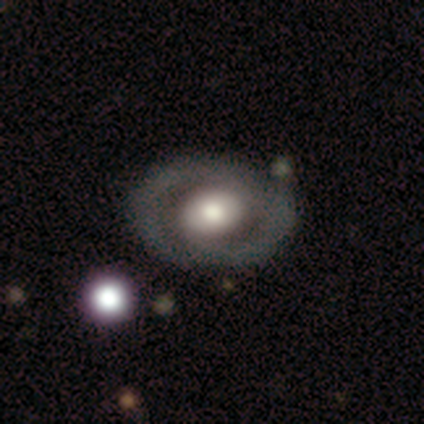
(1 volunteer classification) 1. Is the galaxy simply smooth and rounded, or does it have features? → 100% featured or disk, 0% smooth, 0% star or artifact.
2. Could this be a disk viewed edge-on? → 100% no, 0% yes.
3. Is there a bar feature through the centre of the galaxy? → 100% no, 0% strong, 0% weak.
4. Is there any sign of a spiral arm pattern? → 100% no, 0% yes.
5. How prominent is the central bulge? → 100% moderate, 0% dominant, 0% large, 0% small, 0% none.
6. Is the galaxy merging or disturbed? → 100% none, 0% minor disturbance, 0% major disturbance, 0% merger.